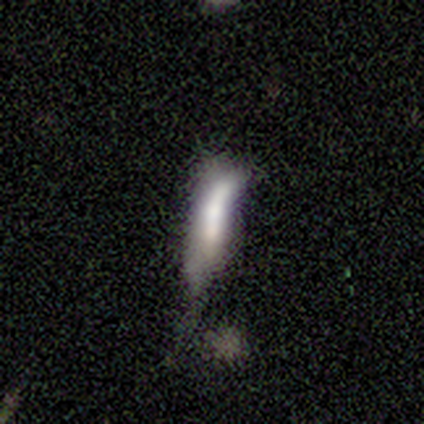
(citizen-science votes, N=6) smooth 67%, featured or disk 17%, star or artifact 17%. Down the decision tree: how rounded — cigar-shaped (75%); merging — minor disturbance (80%).